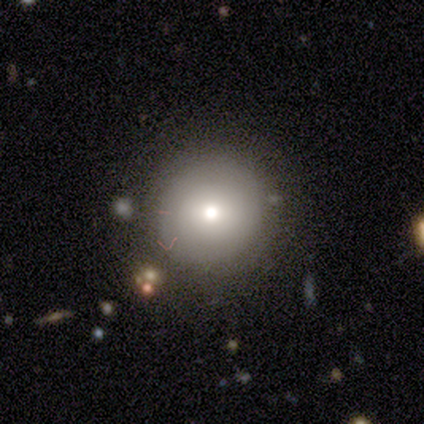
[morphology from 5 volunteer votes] Q: Smooth or featured?
A: smooth (60%); runner-up: featured or disk (40%)
Q: How rounded?
A: round (100%)
Q: Merging?
A: none (60%); runner-up: minor disturbance (20%)